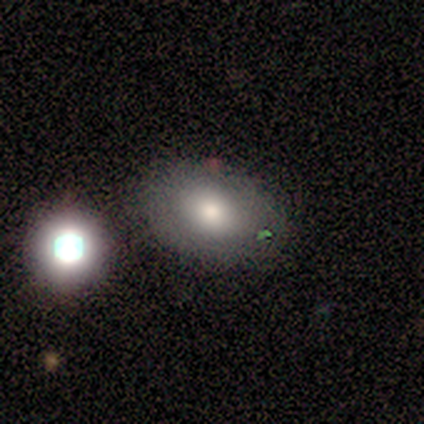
Smooth or featured?
  - smooth: 60% *
  - featured or disk: 20%
  - star or artifact: 20%
How rounded?
  - round: 67% *
  - in between: 33%
  - cigar-shaped: 0%
Merging?
  - none: 100% *
  - minor disturbance: 0%
  - major disturbance: 0%
  - merger: 0%